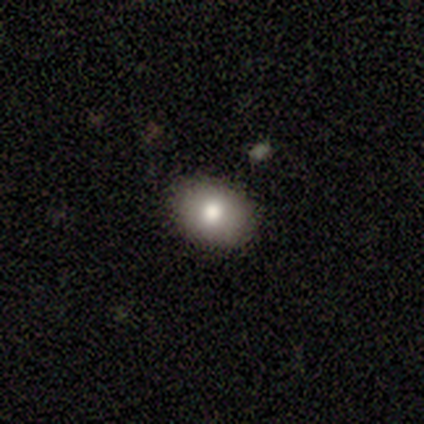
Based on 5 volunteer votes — Morphology: type=smooth (80%); roundness=in between (100%); merging=none (100%).